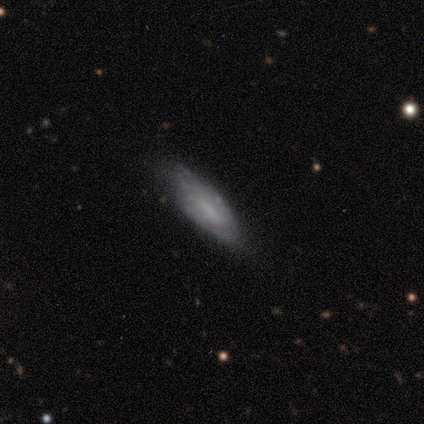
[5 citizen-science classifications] A smooth galaxy with no disk features (80%) that is in between round and cigar-shaped (50%, tied with cigar-shaped).

Vote fractions:
- Smooth or featured? smooth: 80% / featured or disk: 20% / star or artifact: 0%
- How rounded? in between: 50% (tied) / cigar-shaped: 50% (tied) / round: 0%
- Merging? none: 80% / minor disturbance: 20% / major disturbance: 0% / merger: 0%